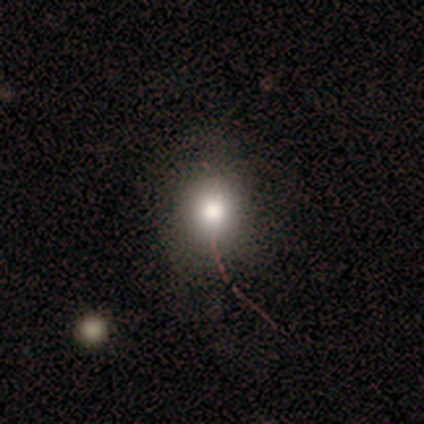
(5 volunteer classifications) Overall: smooth (80%). How rounded: round (100%). Merging: none (50%; minor disturbance 25%).